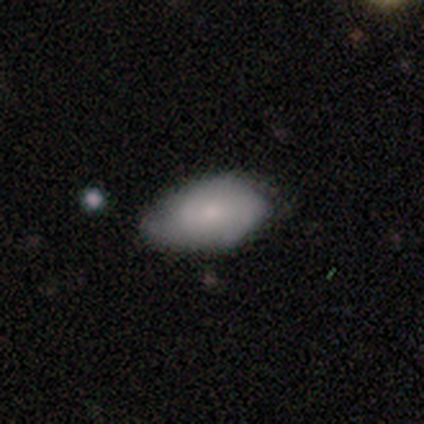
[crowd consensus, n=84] smooth_or_featured: smooth (p=0.70) [alt: featured or disk p=0.24]
how_rounded: in between (p=1.00)
merging: none (p=0.58) [alt: minor disturbance p=0.34]